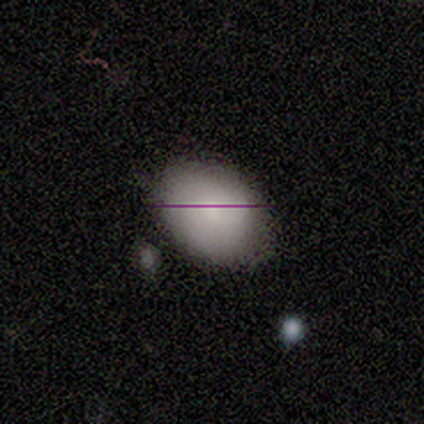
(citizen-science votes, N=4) This appears to be a smooth galaxy with no disk features (75%) that is in between round and cigar-shaped (100%). Merging: none (67%).